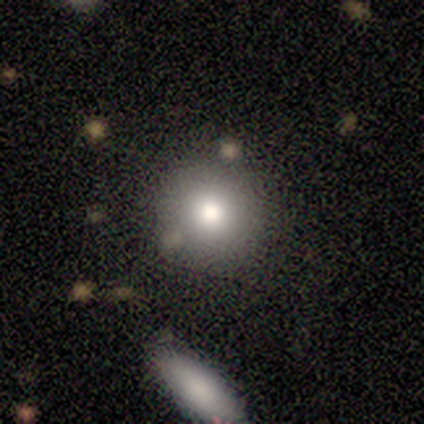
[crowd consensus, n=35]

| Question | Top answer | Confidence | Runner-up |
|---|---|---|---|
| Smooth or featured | smooth | 83% | featured or disk (11%) |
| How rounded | round | 97% | in between (3%) |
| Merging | none | 88% | minor disturbance (9%) |